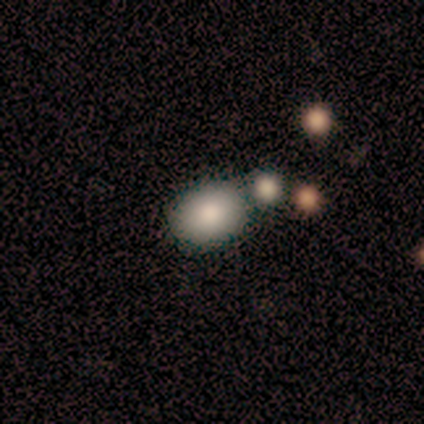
Smooth or featured: smooth — 100%
How rounded: in between — 80% (round — 20%)
Merging: none — 40% (tied with merger — 40%)